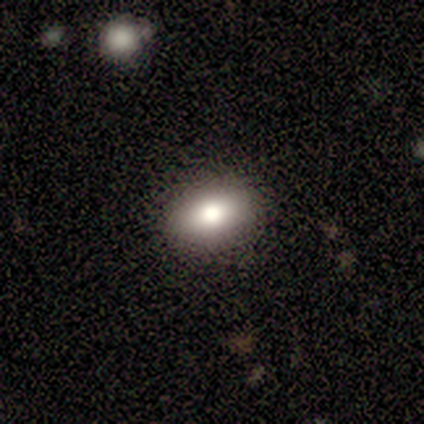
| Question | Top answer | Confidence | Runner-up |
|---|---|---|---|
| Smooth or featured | smooth | 74% | featured or disk (15%) |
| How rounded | in between | 79% | round (21%) |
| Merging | none | 89% | minor disturbance (9%) |